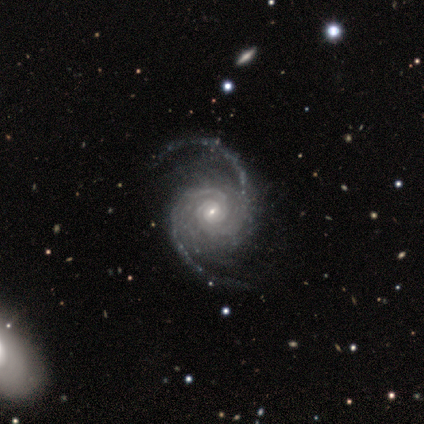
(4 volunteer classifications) Q: Smooth or featured?
A: featured or disk (100%)
Q: Edge-on disk?
A: no (100%)
Q: Bar?
A: weak (50%); tied with: no (50%)
Q: Spiral arms?
A: yes (100%)
Q: Spiral winding?
A: medium (75%); runner-up: tight (25%)
Q: Spiral arm count?
A: 2 (100%)
Q: Bulge size?
A: small (75%); runner-up: moderate (25%)
Q: Merging?
A: minor disturbance (50%); tied with: major disturbance (50%)